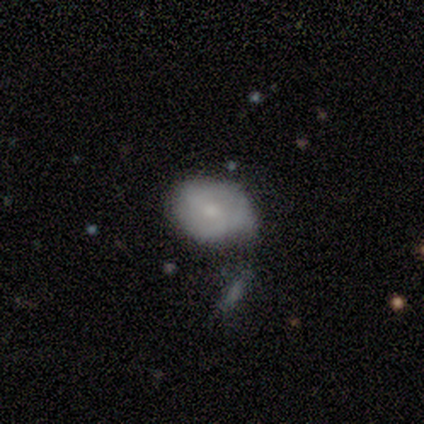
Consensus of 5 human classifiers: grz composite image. It shows a smooth galaxy with no disk features (40%, tied with featured or disk) that is in between round and cigar-shaped (100%). Merging: none (50%, tied with merger).